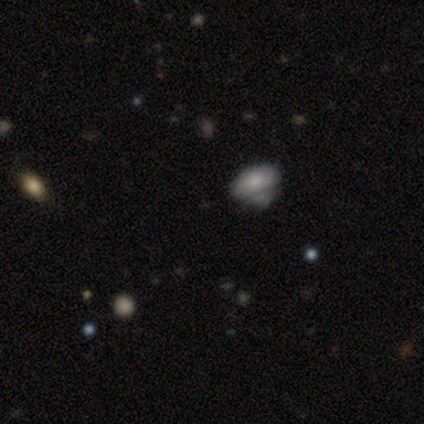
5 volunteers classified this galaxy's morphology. type=smooth (60%); roundness=in between (100%); merging=minor disturbance (50%, tied with major disturbance).